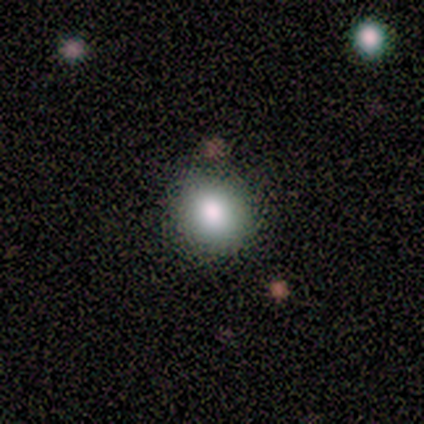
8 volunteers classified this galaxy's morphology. A smooth galaxy with no disk features (75%) that is round (100%).

Vote fractions:
- Smooth or featured? smooth: 75% / star or artifact: 25% / featured or disk: 0%
- How rounded? round: 100% / in between: 0% / cigar-shaped: 0%
- Merging? none: 83% / minor disturbance: 17% / major disturbance: 0% / merger: 0%